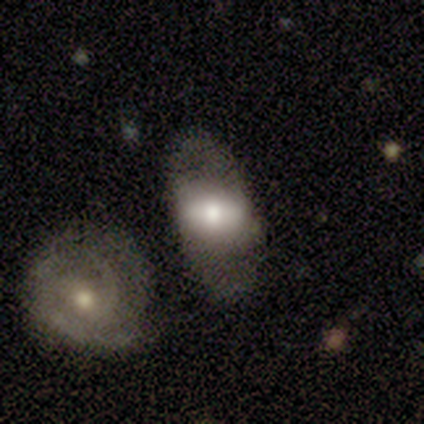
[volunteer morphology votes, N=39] Smooth or featured?
  - featured or disk: 54% *
  - smooth: 41%
  - star or artifact: 5%
Edge-on disk?
  - no: 86% *
  - yes: 14%
Bar?
  - strong: 44% *
  - no: 39%
  - weak: 17%
Spiral arms?
  - no: 67% *
  - yes: 33%
Bulge size?
  - moderate: 50% *
  - large: 22%
  - small: 17%
  - dominant: 11%
  - none: 0%
Merging?
  - none: 49% *
  - minor disturbance: 24%
  - merger: 19%
  - major disturbance: 8%